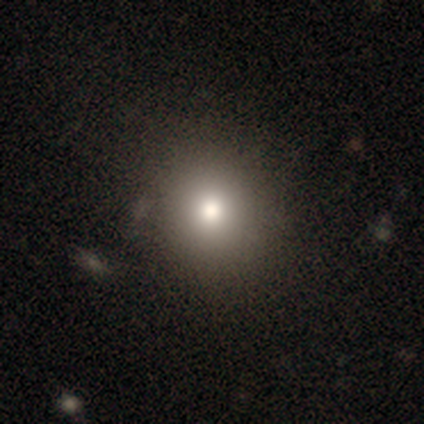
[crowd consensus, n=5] A smooth galaxy with no disk features (100%) that is round (60%). Merging: none (80%).